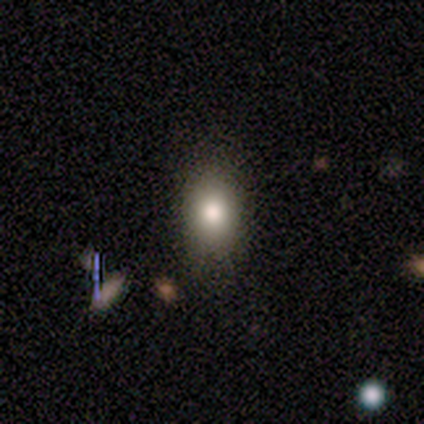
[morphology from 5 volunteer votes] Overall: smooth (80%). How rounded: round (50%, tied with in between). Merging: none (100%).